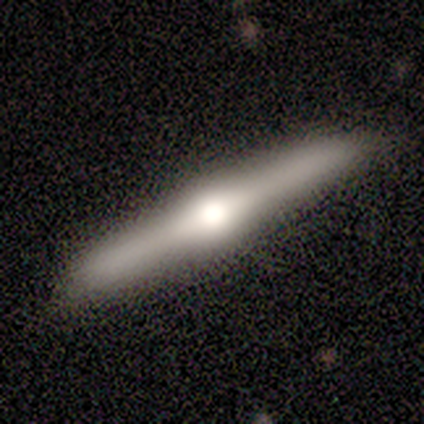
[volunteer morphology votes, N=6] This appears to be a featured or disk galaxy (83%) viewed edge-on (100%) with a rounded central bulge (80%). Merging: none (83%).